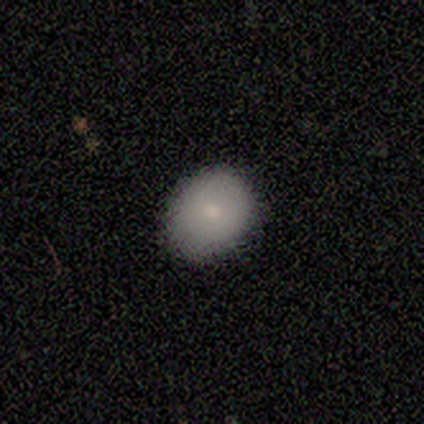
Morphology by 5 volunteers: Smooth or featured?
  - smooth: 100% *
  - featured or disk: 0%
  - star or artifact: 0%
How rounded?
  - in between: 60% *
  - round: 40%
  - cigar-shaped: 0%
Merging?
  - none: 80% *
  - minor disturbance: 20%
  - major disturbance: 0%
  - merger: 0%